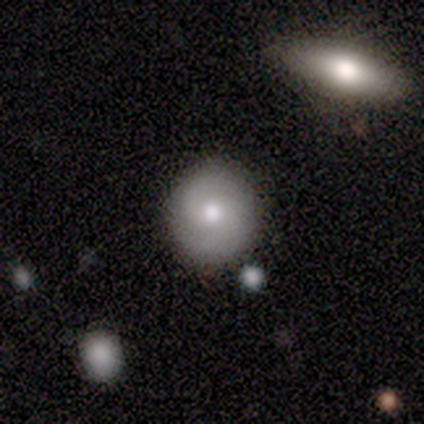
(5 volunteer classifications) Smooth or featured?
  - smooth: 60% *
  - featured or disk: 20%
  - star or artifact: 20%
How rounded?
  - round: 100% *
  - in between: 0%
  - cigar-shaped: 0%
Merging?
  - none: 100% *
  - minor disturbance: 0%
  - major disturbance: 0%
  - merger: 0%